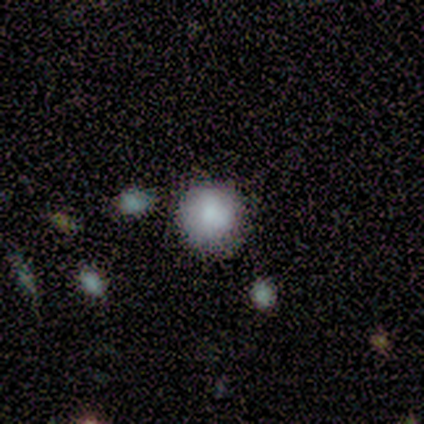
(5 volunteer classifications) smooth-or-featured: smooth: 100% | featured or disk: 0% | star or artifact: 0%
  how-rounded: round: 100% | in between: 0% | cigar-shaped: 0%
  merging: none: 80% | minor disturbance: 20% | major disturbance: 0% | merger: 0%